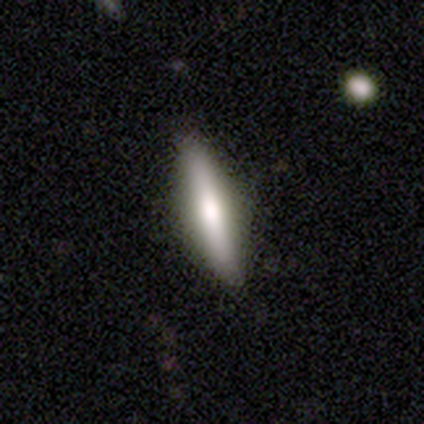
Smooth or featured? 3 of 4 (75%) said featured or disk. Edge-on disk? 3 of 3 (100%) said yes. Edge-on bulge? 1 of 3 (33%, tied with none and rounded) said boxy. Merging? 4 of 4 (100%) said none.